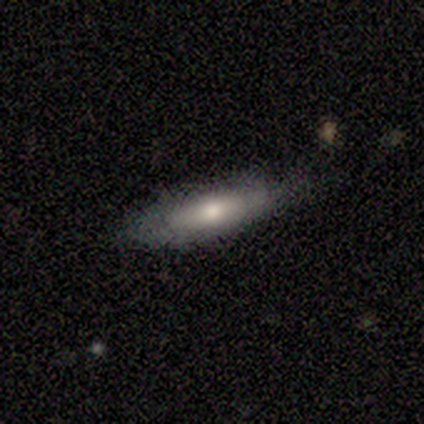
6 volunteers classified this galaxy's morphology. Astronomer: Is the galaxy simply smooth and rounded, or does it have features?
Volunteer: smooth — 50% (runner-up: featured or disk, 33%).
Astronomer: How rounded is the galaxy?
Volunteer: cigar-shaped — 100%.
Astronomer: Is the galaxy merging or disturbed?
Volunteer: none — 60%.